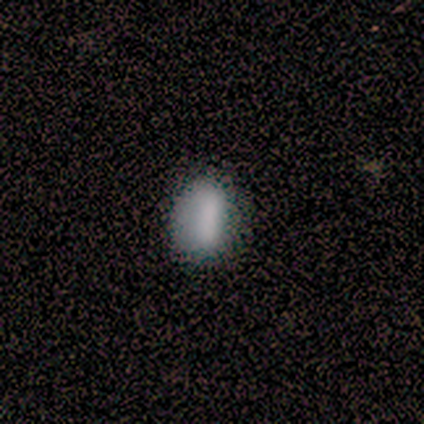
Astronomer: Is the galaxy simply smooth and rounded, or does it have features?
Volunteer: smooth — 83%.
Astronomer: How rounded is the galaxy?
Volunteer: in between — 40% (runner-up: round, 30%).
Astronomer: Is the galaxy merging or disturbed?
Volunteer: none — 82%.